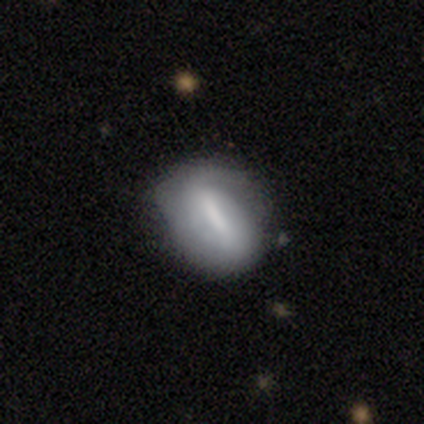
Smooth or featured?
  - smooth: 48% * (tied)
  - featured or disk: 48% * (tied)
  - star or artifact: 3%
How rounded?
  - in between: 81% *
  - round: 14%
  - cigar-shaped: 5%
Merging?
  - none: 60% *
  - minor disturbance: 33%
  - major disturbance: 4%
  - merger: 4%